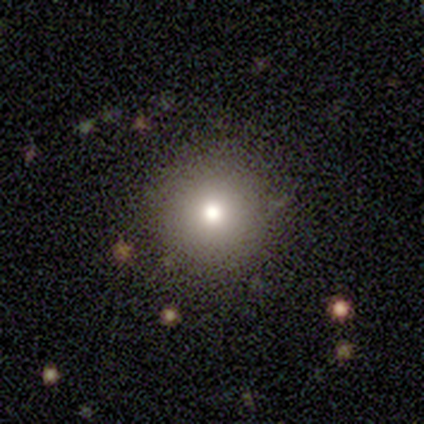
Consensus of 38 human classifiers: A smooth galaxy with no disk features (74%) that is round (96%).

Vote fractions:
- Smooth or featured? smooth: 74% / star or artifact: 18% / featured or disk: 8%
- How rounded? round: 96% / in between: 4% / cigar-shaped: 0%
- Merging? none: 90% / minor disturbance: 6% / major disturbance: 3% / merger: 0%